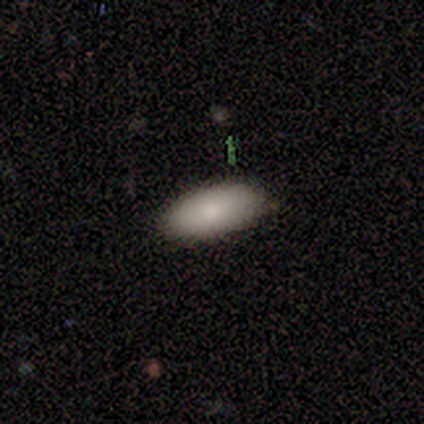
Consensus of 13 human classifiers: smooth 85%, featured or disk 15%, star or artifact 0%. Down the decision tree: how rounded — in between (91%); merging — none (77%).